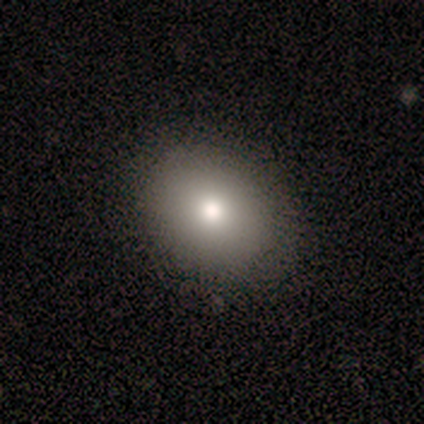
Smooth or featured: smooth — 81% (star or artifact — 12%)
How rounded: round — 62% (in between — 31%)
Merging: none — 93% (minor disturbance — 7%)